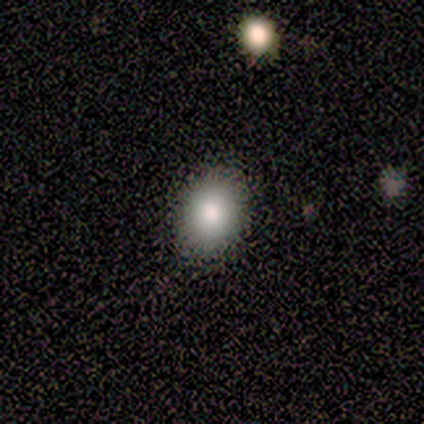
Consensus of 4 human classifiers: This is likely a smooth galaxy (75%). How rounded: clearly round (100%). Merging: clearly none (100%).